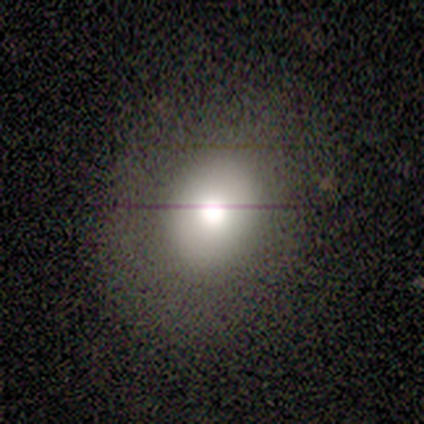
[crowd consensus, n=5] smooth_or_featured: smooth (p=0.80) [alt: star or artifact p=0.20]
how_rounded: round (p=0.75) [alt: in between p=0.25]
merging: none (p=1.00)